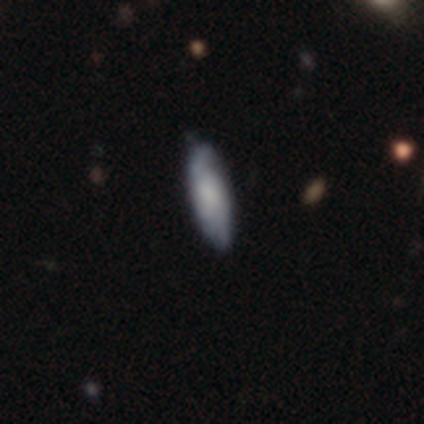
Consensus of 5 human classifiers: smooth_or_featured: smooth (p=0.80) [alt: featured or disk p=0.20]
how_rounded: in between (p=0.50) [tied with: cigar-shaped p=0.50]
merging: none (p=0.80) [alt: minor disturbance p=0.20]